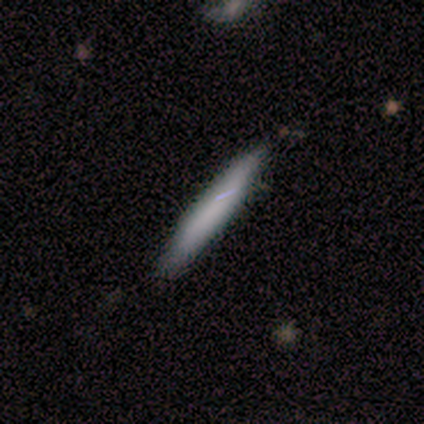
smooth 100%, featured or disk 0%, star or artifact 0%. Down the decision tree: how rounded — cigar-shaped (100%); merging — none (100%).